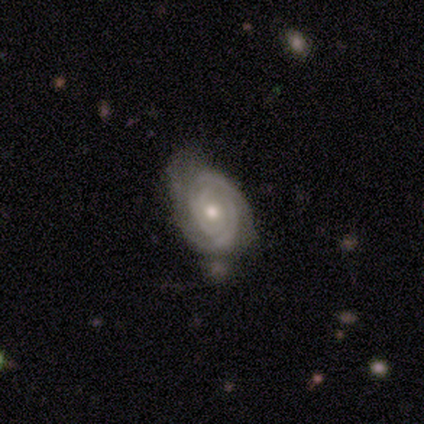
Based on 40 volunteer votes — featured or disk 80%, smooth 12%, star or artifact 8%. Down the decision tree: edge-on disk — no (100%); bar — no (78%); spiral arms — yes (94%); spiral arm count — 2 (40%); spiral winding — tight (73%); bulge size — moderate (59%); merging — none (57%).